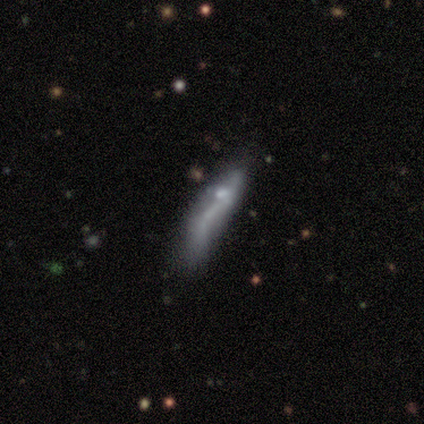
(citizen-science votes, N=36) Volunteers were most divided on "merging" (3-way tie): none: 29%, minor disturbance: 29%, major disturbance: 29%, merger: 12%. More confident: bar — no (92%); spiral arms — no (92%); bulge size — none (75%); edge-on disk — no (63%); smooth or featured — featured or disk (53%).